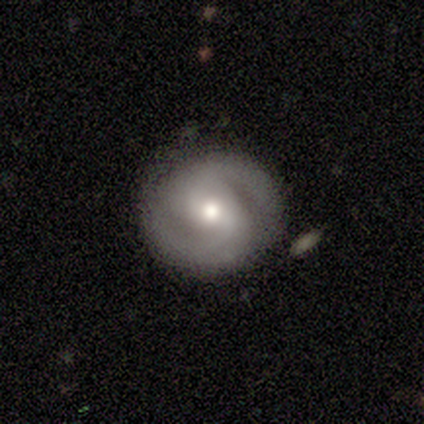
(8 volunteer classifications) Morphology: type=featured or disk (100%); edge-on=no (100%); bar=no (75%); spiral arms=yes (88%); winding=tight (57%); arm count=2 (86%); bulge=moderate (50%); merging=none (88%).